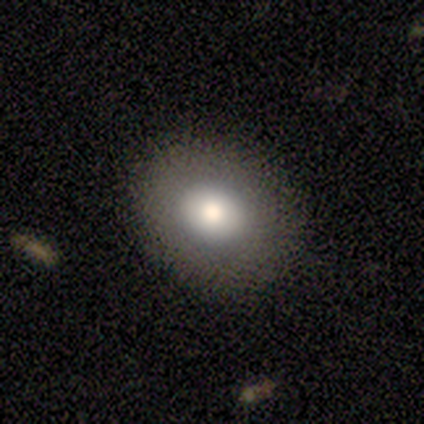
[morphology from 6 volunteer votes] Smooth or featured?
  - smooth: 83% *
  - featured or disk: 17%
  - star or artifact: 0%
How rounded?
  - round: 60% *
  - in between: 40%
  - cigar-shaped: 0%
Merging?
  - none: 100% *
  - minor disturbance: 0%
  - major disturbance: 0%
  - merger: 0%